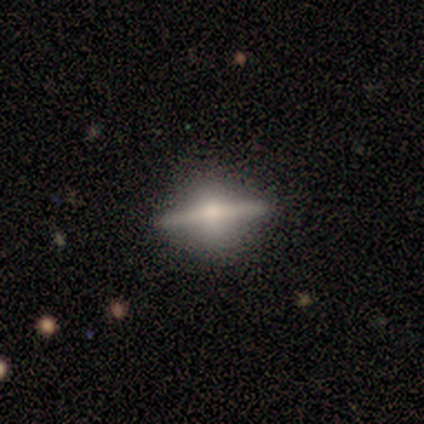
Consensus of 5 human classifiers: smooth_or_featured: featured or disk (p=0.80) [alt: smooth p=0.20]
disk_edge_on: yes (p=0.50) [tied with: no p=0.50]
edge_on_bulge: rounded (p=1.00)
merging: none (p=0.80) [alt: minor disturbance p=0.20]